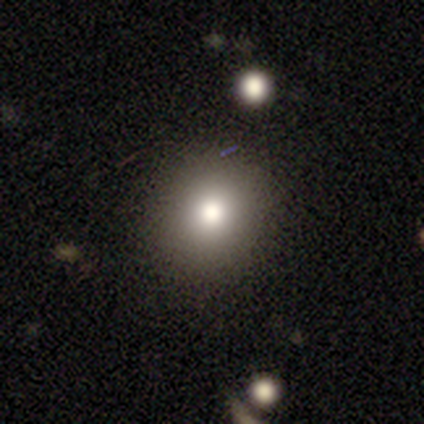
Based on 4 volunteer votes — smooth_or_featured: smooth (p=1.00)
how_rounded: round (p=1.00)
merging: none (p=1.00)